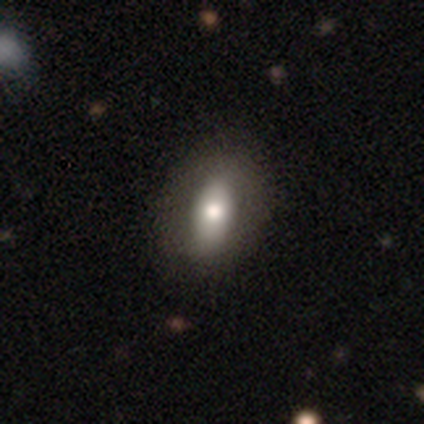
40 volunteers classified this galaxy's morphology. A smooth galaxy with no disk features (70%) that is in between round and cigar-shaped (86%).

Vote fractions:
- Smooth or featured? smooth: 70% / featured or disk: 25% / star or artifact: 5%
- How rounded? in between: 86% / round: 14% / cigar-shaped: 0%
- Merging? none: 58% / minor disturbance: 5% / merger: 5% / major disturbance: 3%